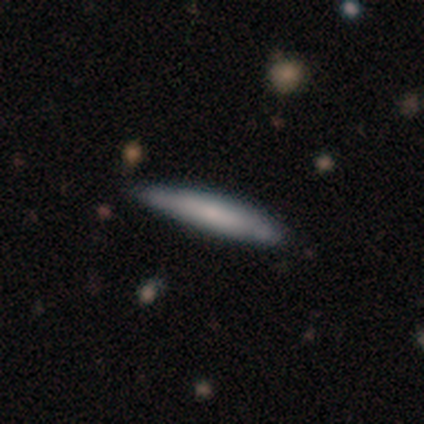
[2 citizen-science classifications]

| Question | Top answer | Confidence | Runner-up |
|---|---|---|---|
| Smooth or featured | smooth | 100% | — |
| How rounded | cigar-shaped | 100% | — |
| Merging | none | 100% | — |